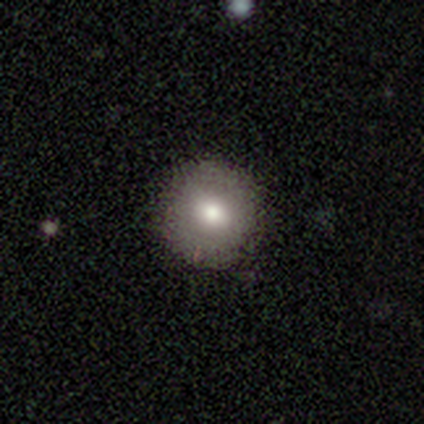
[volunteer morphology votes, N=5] This is clearly a smooth galaxy (100%). How rounded: clearly round (100%). Merging: clearly none (80%).